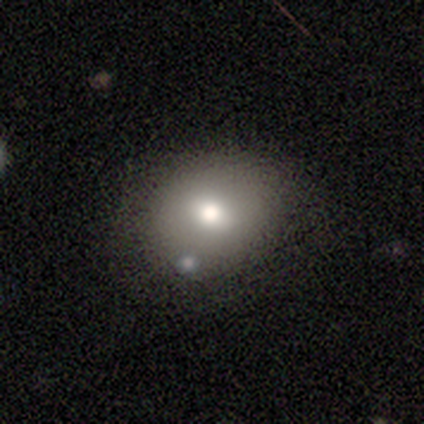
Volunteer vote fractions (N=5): A smooth galaxy with no disk features (60%) that is round (67%). Merging: none (75%).